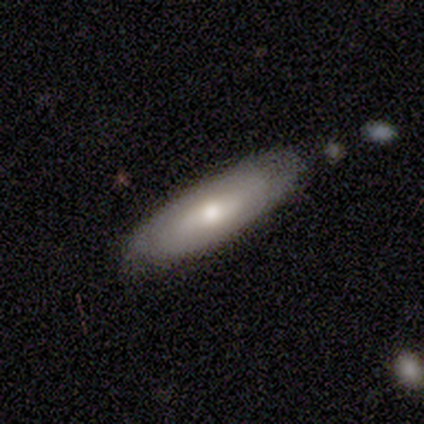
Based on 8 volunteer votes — Smooth or featured?
  - smooth: 50% * (tied)
  - featured or disk: 50% * (tied)
  - star or artifact: 0%
How rounded?
  - in between: 50% * (tied)
  - cigar-shaped: 50% * (tied)
  - round: 0%
Merging?
  - none: 75% *
  - minor disturbance: 25%
  - major disturbance: 0%
  - merger: 0%